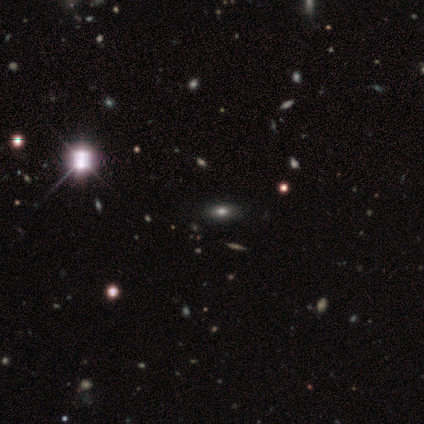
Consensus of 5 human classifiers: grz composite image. It shows a smooth galaxy with no disk features (80%) that is in between round and cigar-shaped (100%). Merging: none (80%).